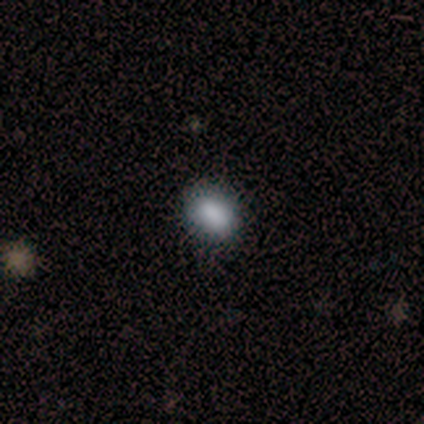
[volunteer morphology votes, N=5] Smooth or featured: smooth — 100%
How rounded: in between — 60% (round — 40%)
Merging: none — 80% (minor disturbance — 20%)